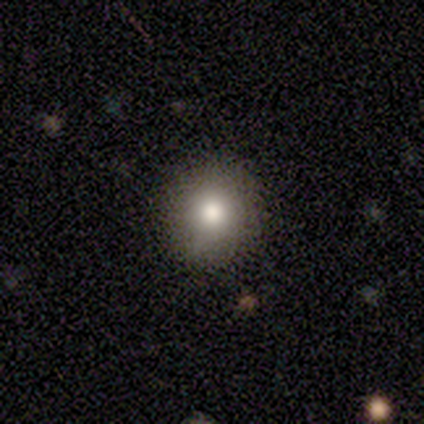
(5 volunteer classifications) Morphology: type=smooth (80%); roundness=round (75%); merging=none (100%).